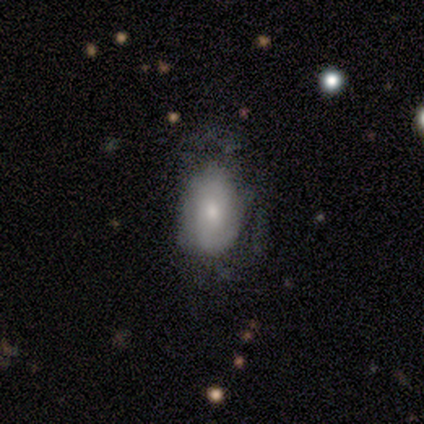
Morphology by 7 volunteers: Smooth or featured: smooth — 71% (featured or disk — 14%)
How rounded: in between — 100%
Merging: none — 67% (minor disturbance — 17%)